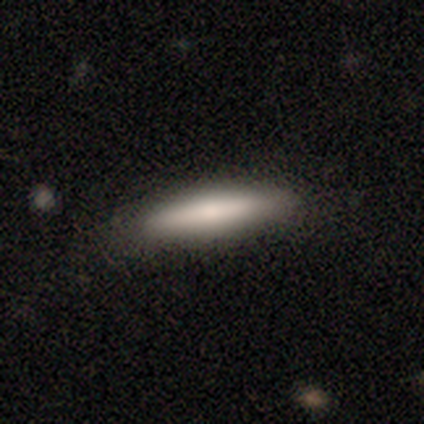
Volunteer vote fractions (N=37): This is likely a smooth galaxy (76%). How rounded: clearly cigar-shaped (100%). Merging: clearly none (85%).